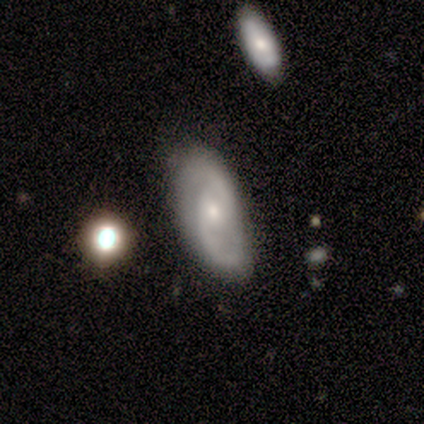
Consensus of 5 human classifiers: Smooth or featured?
  - featured or disk: 100% *
  - smooth: 0%
  - star or artifact: 0%
Edge-on disk?
  - no: 80% *
  - yes: 20%
Bar?
  - no: 100% *
  - strong: 0%
  - weak: 0%
Spiral arms?
  - yes: 100% *
  - no: 0%
Spiral winding?
  - medium: 50% *
  - tight: 25%
  - loose: 25%
Spiral arm count?
  - 2: 50% *
  - 1: 25%
  - can't tell: 25%
  - 3: 0%
  - 4: 0%
  - more than 4: 0%
Bulge size?
  - small: 100% *
  - dominant: 0%
  - large: 0%
  - moderate: 0%
  - none: 0%
Merging?
  - none: 80% *
  - minor disturbance: 20%
  - major disturbance: 0%
  - merger: 0%